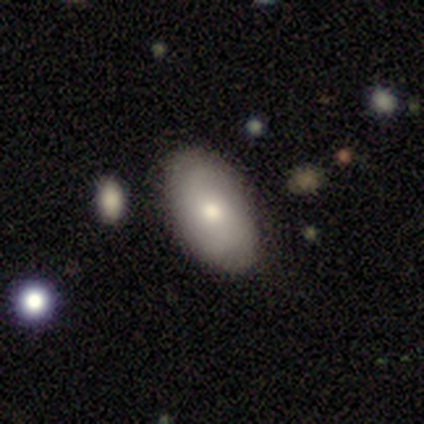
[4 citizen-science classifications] This is possibly a smooth galaxy (50%). How rounded: clearly in between (100%). Merging: clearly none (100%).